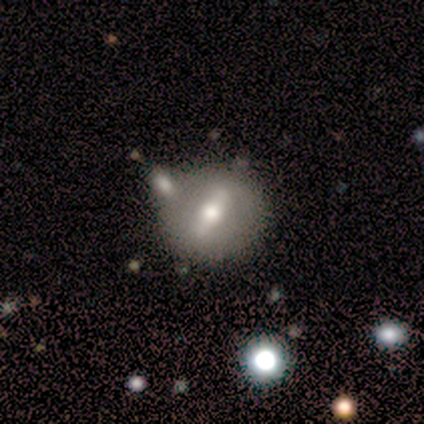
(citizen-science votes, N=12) This appears to be a featured or disk galaxy (67%) with a strong bar (50%), no spiral arms (100%) and a large central bulge (33%, tied with moderate and small). Merging: none (55%).